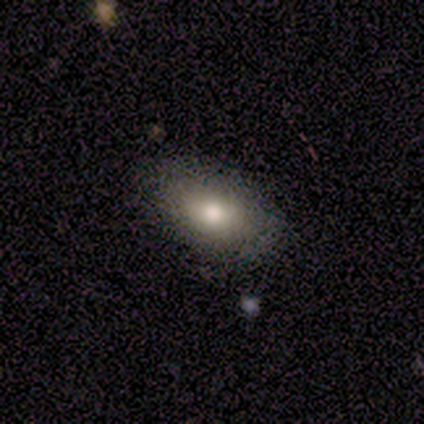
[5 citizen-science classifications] Smooth or featured? 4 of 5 (80%) said smooth. How rounded? 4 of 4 (100%) said in between. Merging? 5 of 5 (100%) said none.